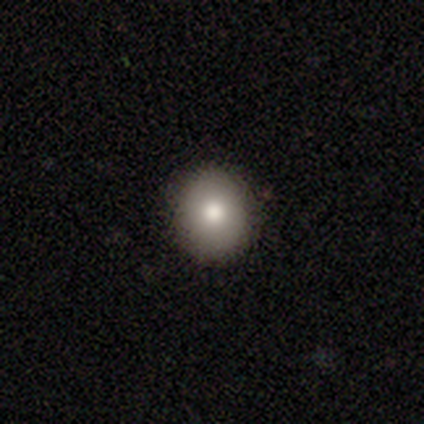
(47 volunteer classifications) Smooth or featured?
  - smooth: 79% *
  - featured or disk: 13%
  - star or artifact: 9%
How rounded?
  - round: 81% *
  - in between: 19%
  - cigar-shaped: 0%
Merging?
  - none: 98% *
  - merger: 2%
  - minor disturbance: 0%
  - major disturbance: 0%